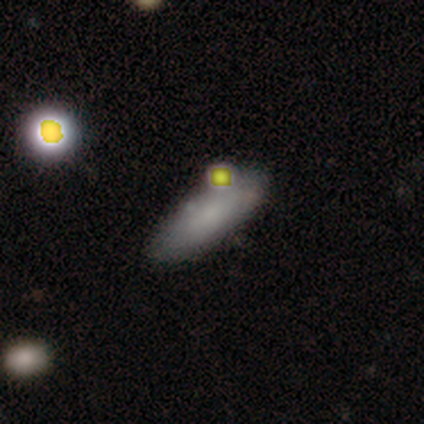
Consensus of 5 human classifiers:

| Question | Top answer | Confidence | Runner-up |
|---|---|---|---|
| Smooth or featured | smooth | 100% | — |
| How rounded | in between | 100% | — |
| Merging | none | 80% | minor disturbance (20%) |